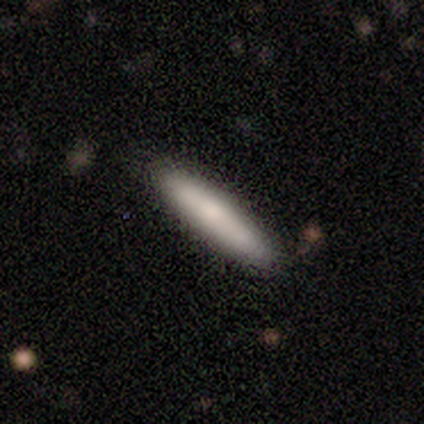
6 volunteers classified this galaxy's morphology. Smooth or featured? smooth (83%)
How rounded? cigar-shaped (80%)
Merging? none (67%)